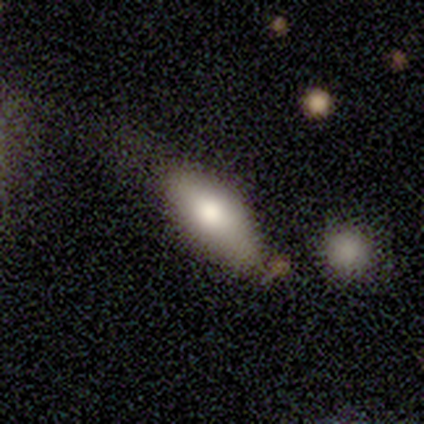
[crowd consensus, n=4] smooth-or-featured: smooth: 75% | star or artifact: 25% | featured or disk: 0%
  how-rounded: in between: 67% | cigar-shaped: 33% | round: 0%
  merging: none: 67% | minor disturbance: 33% | major disturbance: 0% | merger: 0%